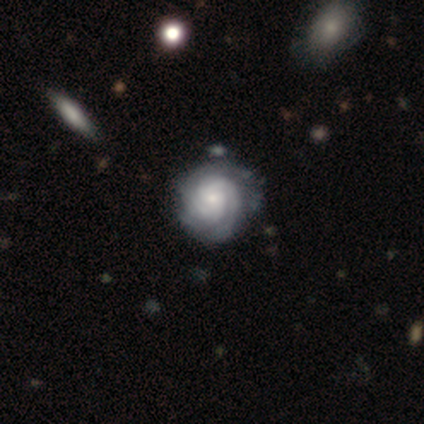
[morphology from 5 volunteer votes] smooth-or-featured: featured or disk: 100% | smooth: 0% | star or artifact: 0%
  disk-edge-on: no: 100% | yes: 0%
    bar: no: 100% | strong: 0% | weak: 0%
    has-spiral-arms: yes: 100% | no: 0%
      spiral-winding: tight: 80% | medium: 20% | loose: 0%
      spiral-arm-count: 3: 40% | 1: 20% | 2: 20% | can't tell: 20% | 4: 0% | more than 4: 0%
    bulge-size: small: 60% | large: 20% | none: 20% | dominant: 0% | moderate: 0%
  merging: none: 60% | minor disturbance: 40% | major disturbance: 0% | merger: 0%